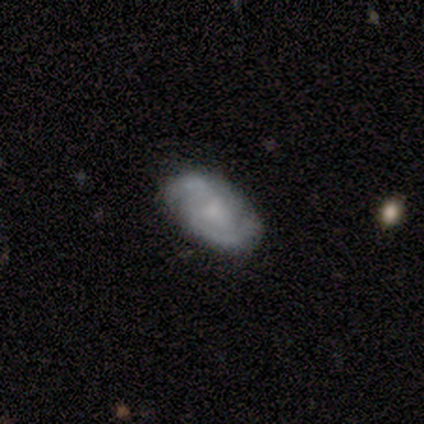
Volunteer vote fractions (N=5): Q: Smooth or featured?
A: featured or disk (80%); runner-up: smooth (20%)
Q: Edge-on disk?
A: no (100%)
Q: Bar?
A: no (50%); runner-up: strong (25%)
Q: Spiral arms?
A: yes (100%)
Q: Spiral winding?
A: loose (50%); runner-up: tight (25%)
Q: Spiral arm count?
A: 2 (100%)
Q: Bulge size?
A: moderate (50%); tied with: none (50%)
Q: Merging?
A: minor disturbance (60%); runner-up: none (40%)